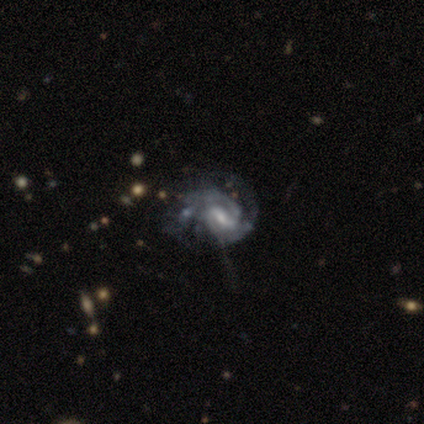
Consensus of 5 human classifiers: This is clearly a featured or disk galaxy (80%). It is clearly not viewed edge-on (100%). Bar: possibly weak (50%). Spiral arm pattern: clearly yes (100%). Spiral arm count: likely 2 (75%). Spiral winding: clearly tight (100%). Central bulge: likely small (75%). Merging: possibly none (50%).